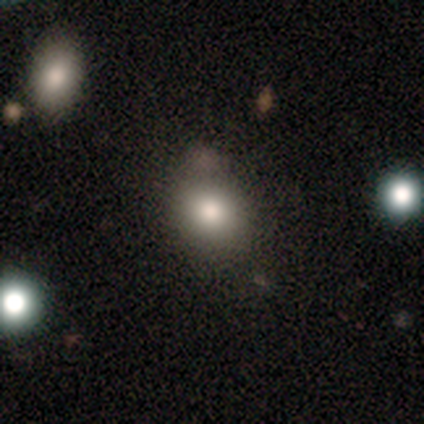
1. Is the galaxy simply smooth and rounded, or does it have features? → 80% smooth, 20% star or artifact, 0% featured or disk.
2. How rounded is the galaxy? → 75% round, 25% in between, 0% cigar-shaped.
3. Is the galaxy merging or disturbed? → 100% none, 0% minor disturbance, 0% major disturbance, 0% merger.